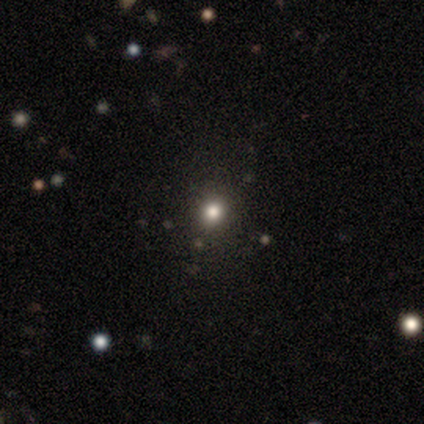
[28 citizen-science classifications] Smooth or featured? 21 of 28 (75%) said smooth. How rounded? 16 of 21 (76%) said round. Merging? 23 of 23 (100%) said none.